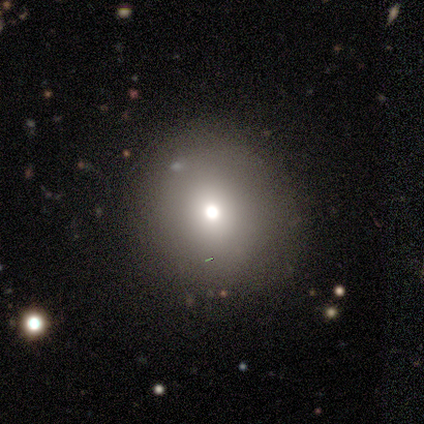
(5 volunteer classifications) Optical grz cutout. It shows a smooth galaxy with no disk features (80%) that is round (75%). Merging: none (100%).